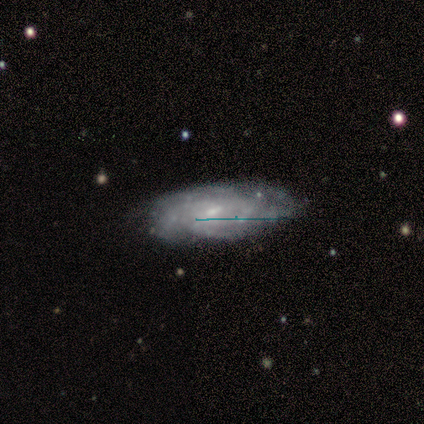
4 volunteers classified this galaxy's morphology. Smooth or featured?
  - smooth: 50% * (tied)
  - featured or disk: 50% * (tied)
  - star or artifact: 0%
How rounded?
  - in between: 100% *
  - round: 0%
  - cigar-shaped: 0%
Merging?
  - none: 75% *
  - merger: 25%
  - minor disturbance: 0%
  - major disturbance: 0%